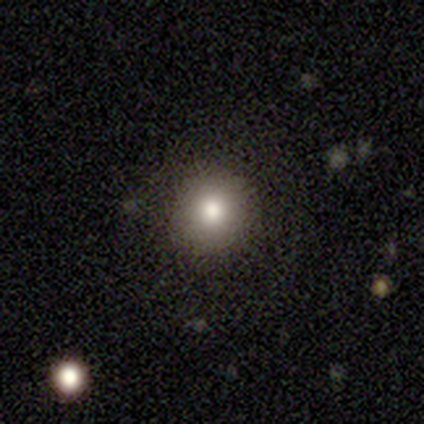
A smooth galaxy with no disk features (75%) that is round (100%).

Vote fractions:
- Smooth or featured? smooth: 75% / featured or disk: 25% / star or artifact: 0%
- How rounded? round: 100% / in between: 0% / cigar-shaped: 0%
- Merging? none: 100% / minor disturbance: 0% / major disturbance: 0% / merger: 0%